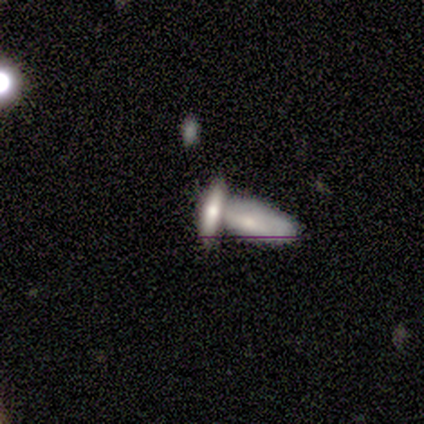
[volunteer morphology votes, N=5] This is clearly a smooth galaxy (80%). How rounded: likely cigar-shaped (75%). Merging: clearly merger (100%).